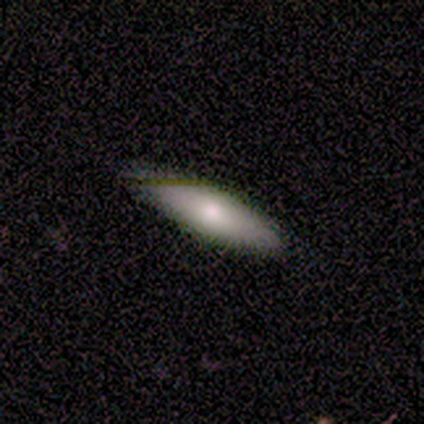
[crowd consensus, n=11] Smooth or featured: smooth — 45% (tied with featured or disk — 45%)
How rounded: in between — 80% (cigar-shaped — 20%)
Merging: none — 90% (minor disturbance — 10%)